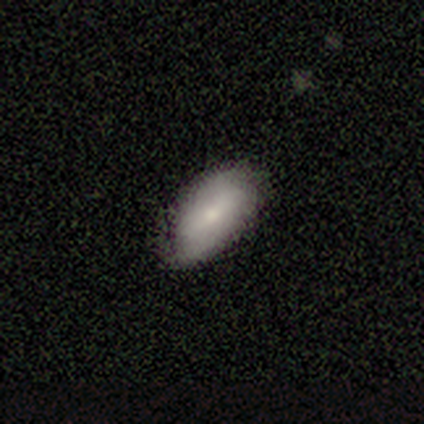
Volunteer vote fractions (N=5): Morphology: type=smooth (80%); roundness=in between (100%); merging=none (80%).